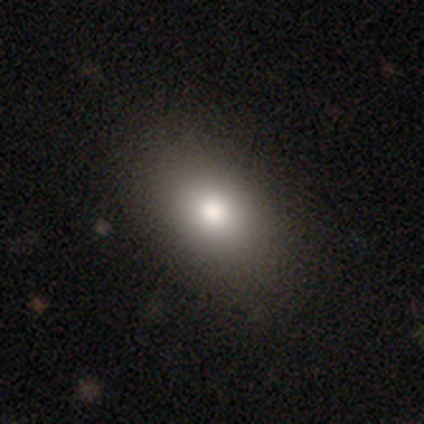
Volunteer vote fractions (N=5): A smooth galaxy with no disk features (80%) that is in between round and cigar-shaped (75%). Merging: none (75%).